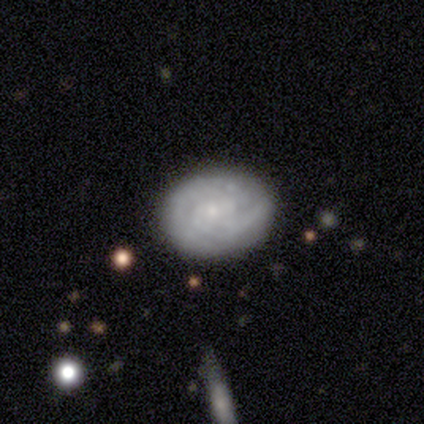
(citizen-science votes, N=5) This is clearly a featured or disk galaxy (80%). It is clearly not viewed edge-on (100%). Bar: possibly weak (50%, tied with no). Spiral arm pattern: clearly yes (100%). Spiral arm count: possibly 2 (50%). Spiral winding: possibly tight (50%, tied with medium). Central bulge: likely small (75%). Merging: clearly none (100%).